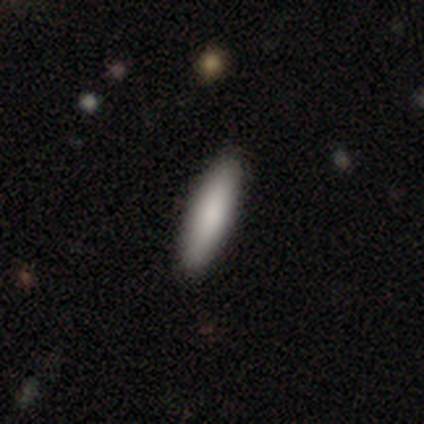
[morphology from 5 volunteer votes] smooth_or_featured: smooth (p=0.60) [alt: featured or disk p=0.20]
how_rounded: cigar-shaped (p=0.67) [alt: round p=0.33]
merging: none (p=1.00)